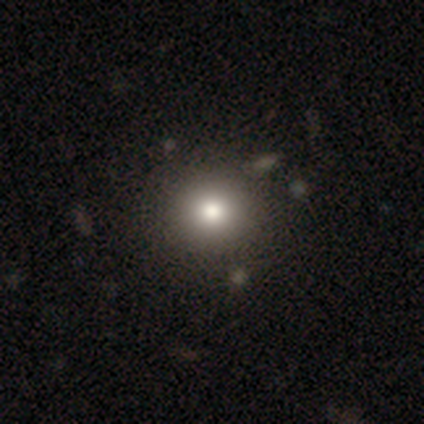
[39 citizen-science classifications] Q: Smooth or featured?
A: smooth (82%); runner-up: star or artifact (10%)
Q: How rounded?
A: round (91%); runner-up: in between (9%)
Q: Merging?
A: none (71%); runner-up: minor disturbance (6%)